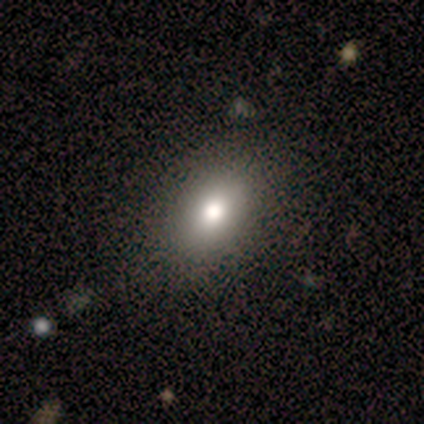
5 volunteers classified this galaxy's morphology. smooth-or-featured: smooth: 80% | star or artifact: 20% | featured or disk: 0%
  how-rounded: in between: 100% | round: 0% | cigar-shaped: 0%
  merging: none: 75% | major disturbance: 25% | minor disturbance: 0% | merger: 0%